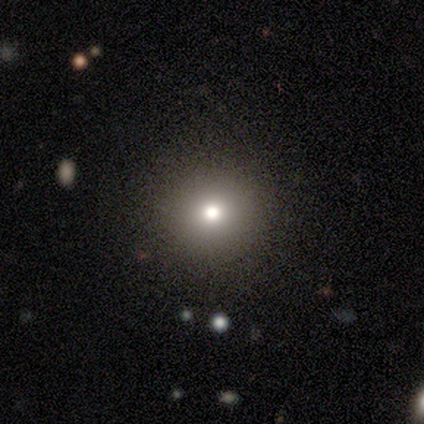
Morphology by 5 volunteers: smooth 80%, star or artifact 20%, featured or disk 0%. Down the decision tree: how rounded — round (100%); merging — none (75%).